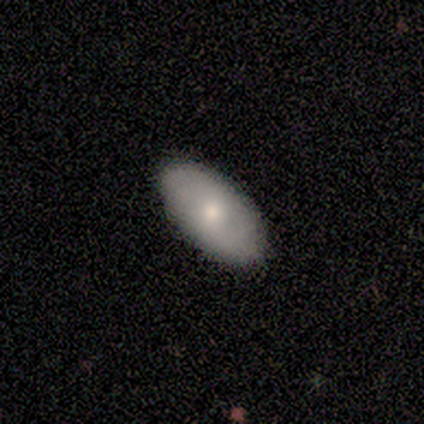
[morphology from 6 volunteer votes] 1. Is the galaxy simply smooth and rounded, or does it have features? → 67% smooth, 33% featured or disk, 0% star or artifact.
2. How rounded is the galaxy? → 100% in between, 0% round, 0% cigar-shaped.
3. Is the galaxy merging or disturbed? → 100% none, 0% minor disturbance, 0% major disturbance, 0% merger.